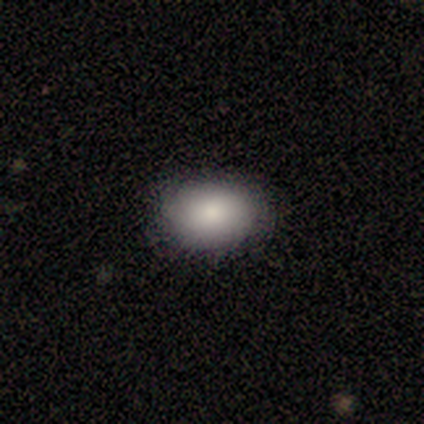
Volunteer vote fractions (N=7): This is likely a smooth galaxy (71%). How rounded: clearly in between (80%). Merging: clearly none (100%).